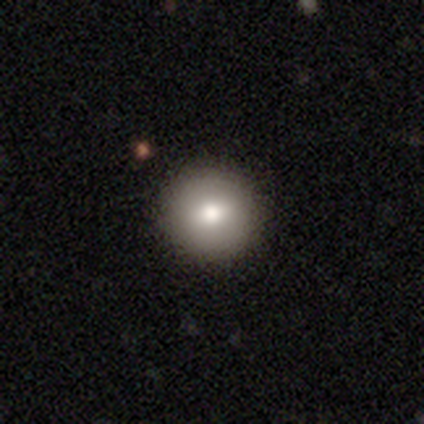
Smooth or featured? 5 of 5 (100%) said smooth. How rounded? 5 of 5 (100%) said round. Merging? 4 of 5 (80%) said none.